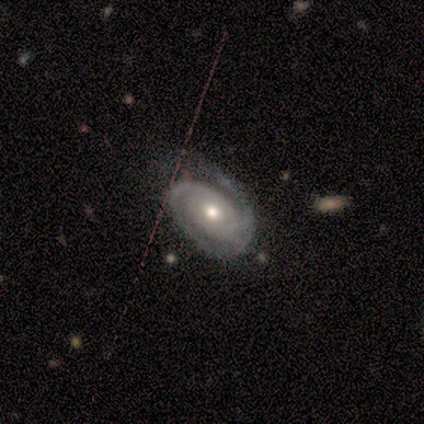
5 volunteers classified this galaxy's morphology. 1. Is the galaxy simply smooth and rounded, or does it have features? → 100% featured or disk, 0% smooth, 0% star or artifact.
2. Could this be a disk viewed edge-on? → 100% no, 0% yes.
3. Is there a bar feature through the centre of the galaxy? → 100% no, 0% strong, 0% weak.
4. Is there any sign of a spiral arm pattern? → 100% yes, 0% no.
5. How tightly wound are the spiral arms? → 100% tight, 0% medium, 0% loose.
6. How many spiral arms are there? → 80% 2, 20% 3, 0% 1, 0% 4, 0% more than 4, 0% can't tell.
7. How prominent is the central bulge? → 40% moderate (tied), 40% small (tied), 20% large, 0% dominant, 0% none.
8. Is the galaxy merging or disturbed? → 60% none, 40% minor disturbance, 0% major disturbance, 0% merger.